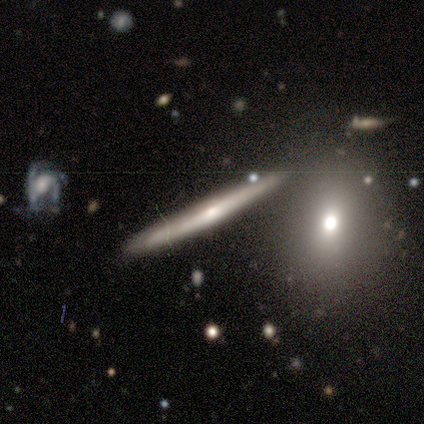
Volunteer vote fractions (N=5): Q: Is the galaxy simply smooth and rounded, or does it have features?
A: featured or disk — 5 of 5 (100%).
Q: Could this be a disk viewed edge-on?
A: yes — 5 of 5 (100%).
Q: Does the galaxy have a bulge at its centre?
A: rounded — 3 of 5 (60%).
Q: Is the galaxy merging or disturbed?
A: none — 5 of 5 (100%).